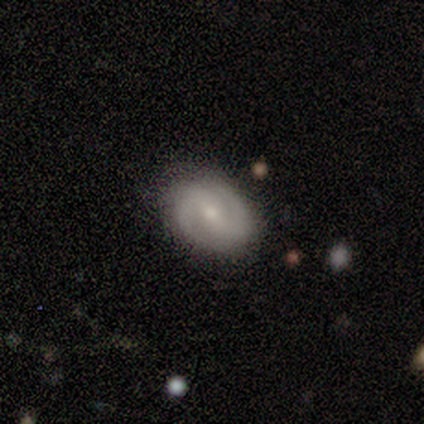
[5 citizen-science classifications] Smooth or featured? 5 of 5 (100%) said featured or disk. Edge-on disk? 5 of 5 (100%) said no. Bar? 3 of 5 (60%) said weak. Spiral arms? 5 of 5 (100%) said yes. Spiral winding? 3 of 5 (60%) said tight. Spiral arm count? 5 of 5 (100%) said 2. Bulge size? 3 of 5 (60%) said moderate. Merging? 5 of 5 (100%) said none.